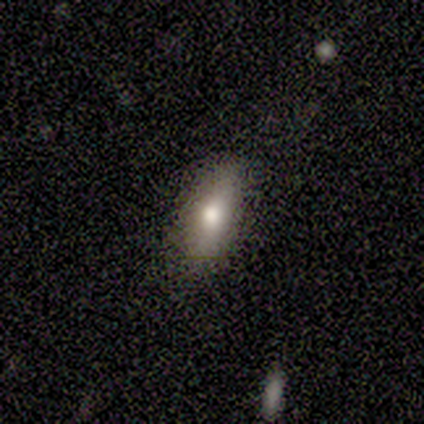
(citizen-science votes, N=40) This appears to be a smooth galaxy with no disk features (70%) that is in between round and cigar-shaped (79%). Merging: none (86%).